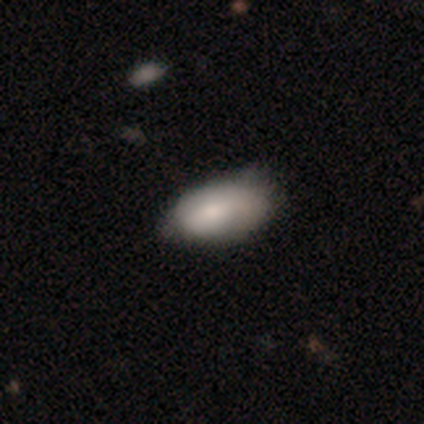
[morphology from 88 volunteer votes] type=smooth (73%); roundness=in between (95%); merging=minor disturbance (50%).